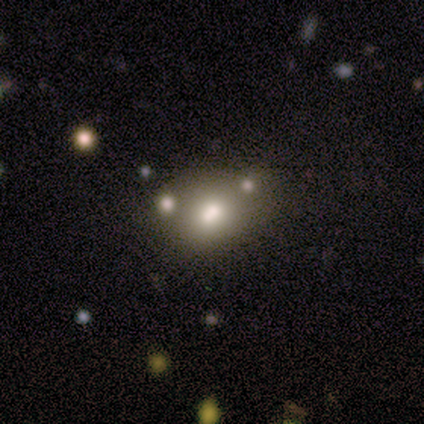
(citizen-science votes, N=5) Smooth or featured?
  - smooth: 60% *
  - featured or disk: 40%
  - star or artifact: 0%
How rounded?
  - in between: 67% *
  - round: 33%
  - cigar-shaped: 0%
Merging?
  - none: 40% * (tied)
  - minor disturbance: 40% * (tied)
  - merger: 20%
  - major disturbance: 0%